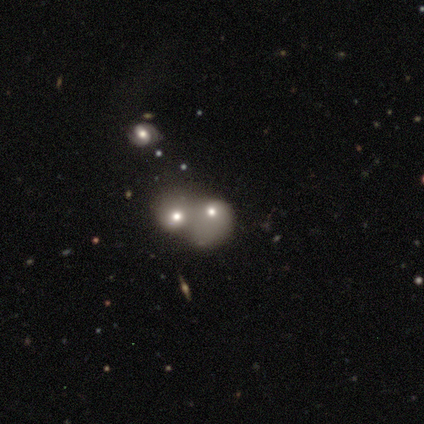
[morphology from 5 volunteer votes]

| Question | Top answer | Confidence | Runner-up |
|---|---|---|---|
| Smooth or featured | smooth | 100% | — |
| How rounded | round | 60% | in between (40%) |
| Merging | merger | 100% | — |